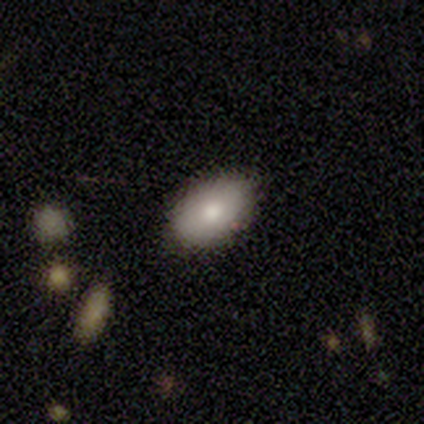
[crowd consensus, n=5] This is clearly a smooth galaxy (80%). How rounded: clearly in between (100%). Merging: possibly none (50%, tied with minor disturbance).